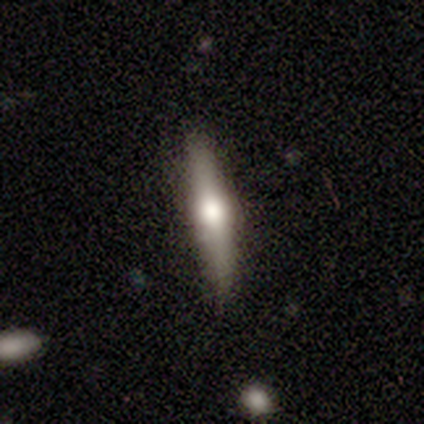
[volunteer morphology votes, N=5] Smooth or featured? featured or disk (60%)
Edge-on disk? yes (100%)
Edge-on bulge? rounded (100%)
Merging? none (100%)